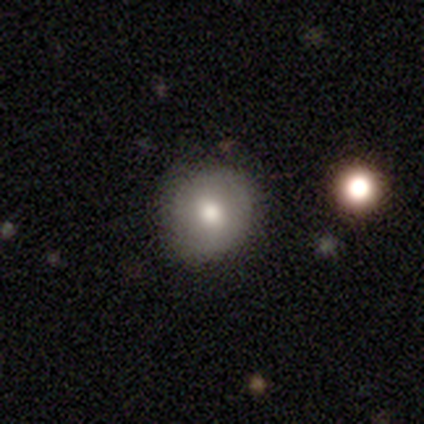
This appears to be a smooth galaxy with no disk features (100%) that is round (40%, tied with in between). Merging: none (60%).